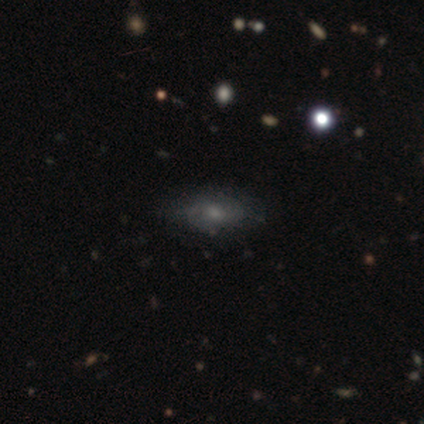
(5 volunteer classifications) Smooth or featured?
  - smooth: 60% *
  - featured or disk: 40%
  - star or artifact: 0%
How rounded?
  - in between: 100% *
  - round: 0%
  - cigar-shaped: 0%
Merging?
  - none: 100% *
  - minor disturbance: 0%
  - major disturbance: 0%
  - merger: 0%